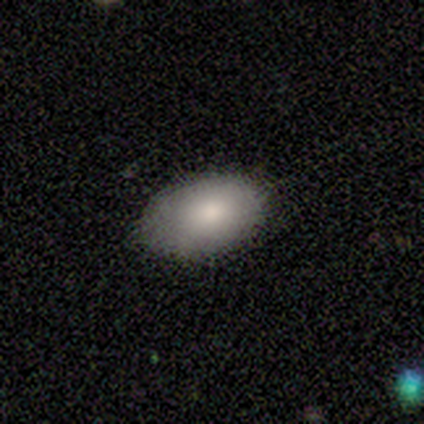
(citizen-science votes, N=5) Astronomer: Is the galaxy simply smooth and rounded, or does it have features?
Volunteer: smooth — 40%, tied with star or artifact at 40%.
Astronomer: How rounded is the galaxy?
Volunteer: in between — 100%.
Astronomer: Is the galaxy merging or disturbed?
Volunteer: none — 100%.